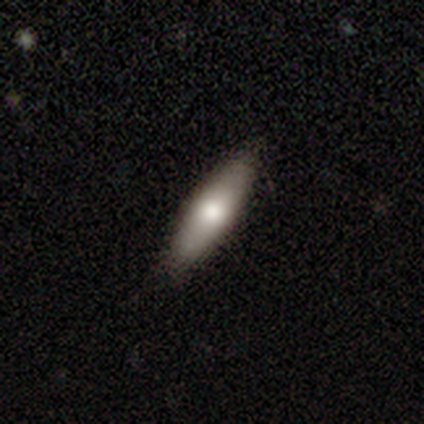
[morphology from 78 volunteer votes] Overall: smooth (76%). How rounded: cigar-shaped (69%; in between 31%). Merging: none (45%).